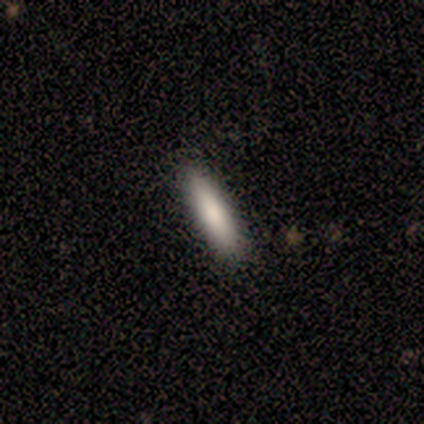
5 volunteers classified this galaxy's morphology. This appears to be a smooth galaxy with no disk features (100%) that is cigar-shaped (100%). Merging: none (100%).